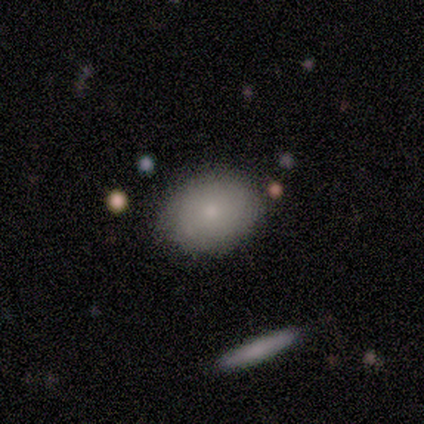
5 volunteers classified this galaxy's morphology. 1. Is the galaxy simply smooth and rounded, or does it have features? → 80% smooth, 20% featured or disk, 0% star or artifact.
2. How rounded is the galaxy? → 75% in between, 25% round, 0% cigar-shaped.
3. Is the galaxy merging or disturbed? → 100% none, 0% minor disturbance, 0% major disturbance, 0% merger.